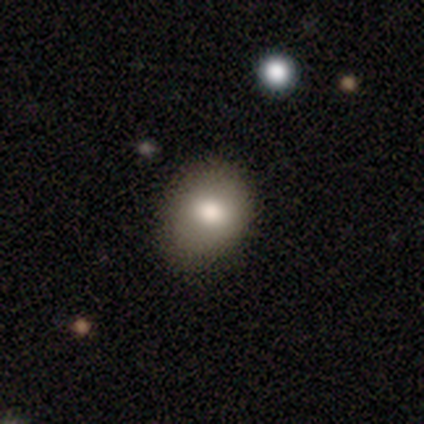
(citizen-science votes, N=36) This is likely a smooth galaxy (67%). How rounded: possibly round (54%). Merging: clearly none (82%).